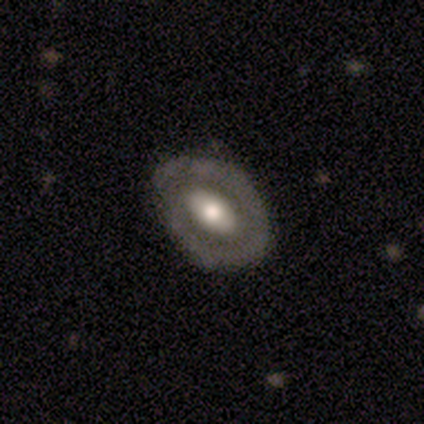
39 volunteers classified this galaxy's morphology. type=featured or disk (62%); edge-on=no (100%); bar=weak (38%, tied with no); spiral arms=no (62%); bulge=moderate (75%); merging=none (53%).